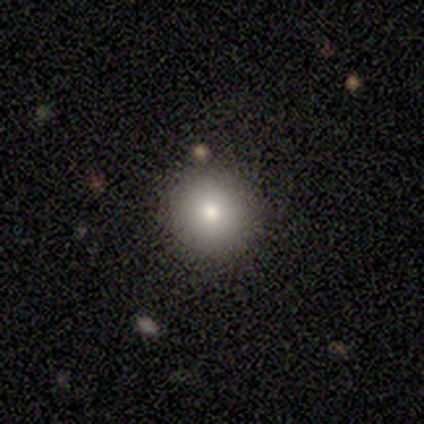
A smooth galaxy with no disk features (100%) that is round (100%). Merging: none (100%).